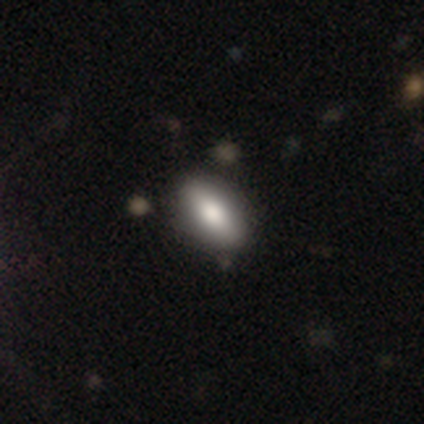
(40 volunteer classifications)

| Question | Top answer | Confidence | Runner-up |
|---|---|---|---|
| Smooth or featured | smooth | 82% | featured or disk (10%) |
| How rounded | in between | 94% | round (3%) |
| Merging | none | 57% | minor disturbance (5%) |